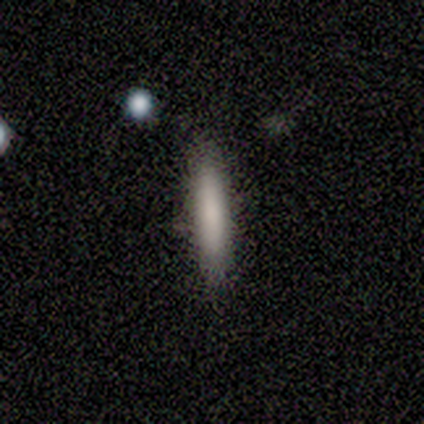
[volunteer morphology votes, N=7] Overall: smooth (100%). How rounded: cigar-shaped (100%). Merging: none (86%).